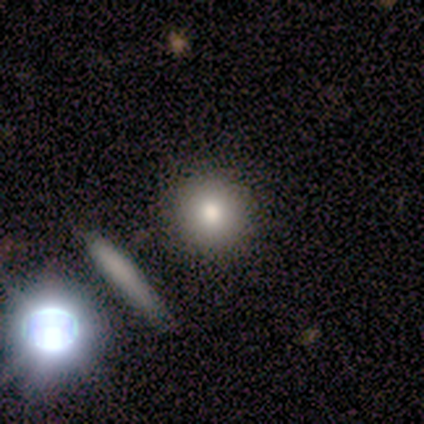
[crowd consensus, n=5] smooth 80%, star or artifact 20%, featured or disk 0%. Down the decision tree: how rounded — round (100%); merging — none (75%).